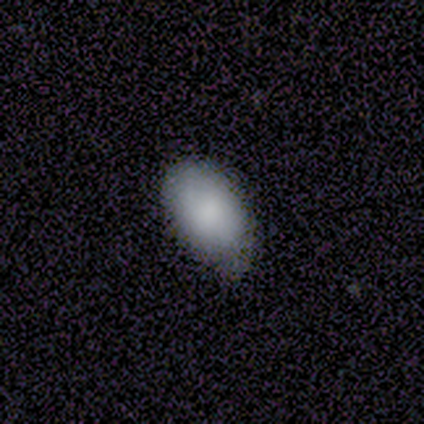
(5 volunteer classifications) A smooth galaxy with no disk features (80%) that is in between round and cigar-shaped (75%).

Vote fractions:
- Smooth or featured? smooth: 80% / featured or disk: 20% / star or artifact: 0%
- How rounded? in between: 75% / round: 25% / cigar-shaped: 0%
- Merging? none: 60% / minor disturbance: 40% / major disturbance: 0% / merger: 0%